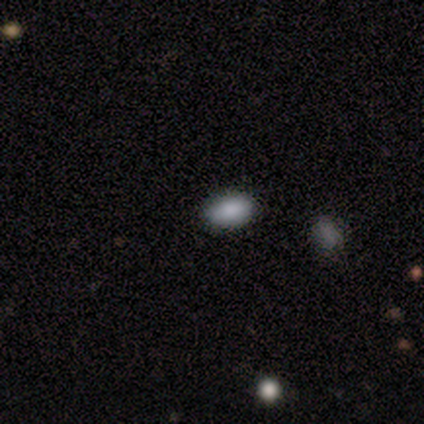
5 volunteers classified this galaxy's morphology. This appears to be a smooth galaxy with no disk features (100%) that is in between round and cigar-shaped (100%). Merging: none (80%).